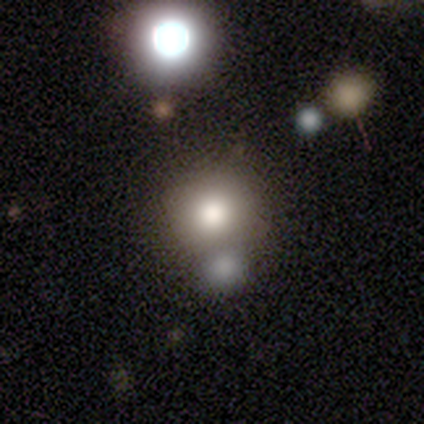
smooth-or-featured: smooth: 60% | featured or disk: 40% | star or artifact: 0%
  how-rounded: round: 100% | in between: 0% | cigar-shaped: 0%
  merging: none: 60% | merger: 40% | minor disturbance: 0% | major disturbance: 0%